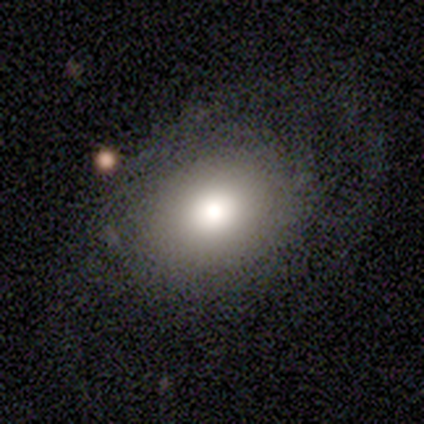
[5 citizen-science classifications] Q: Smooth or featured?
A: smooth (100%)
Q: How rounded?
A: round (80%); runner-up: in between (20%)
Q: Merging?
A: none (100%)